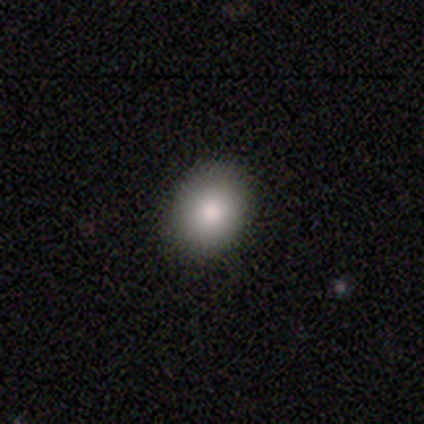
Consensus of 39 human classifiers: Overall: smooth (87%). How rounded: in between (50%; round 47%). Merging: none (94%).